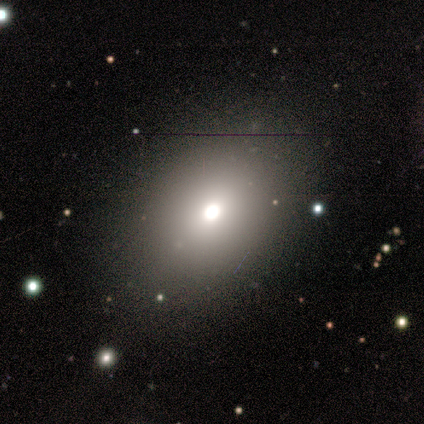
A smooth galaxy with no disk features (100%) that is in between round and cigar-shaped (100%). Merging: none (100%).